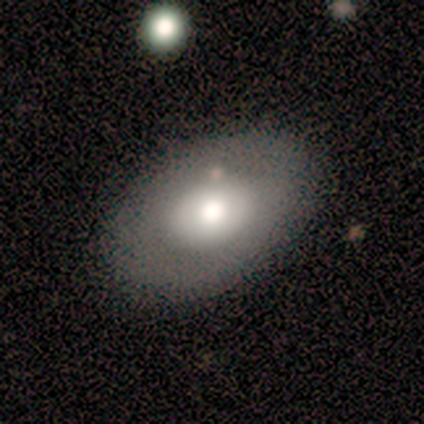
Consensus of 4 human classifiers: Volunteers were most divided on "smooth or featured" (2-way tie): smooth: 50%, featured or disk: 50%, star or artifact: 0%. More confident: how rounded — round (100%); merging — none (100%).